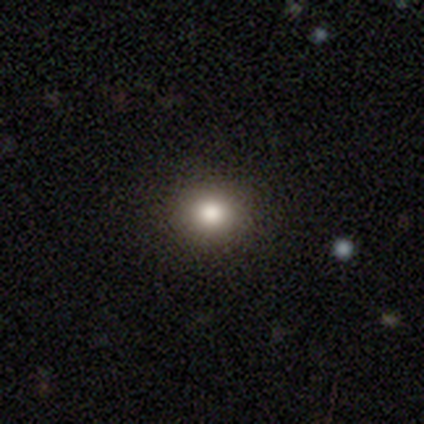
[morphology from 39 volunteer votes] Overall: smooth (87%). How rounded: round (91%). Merging: none (100%).